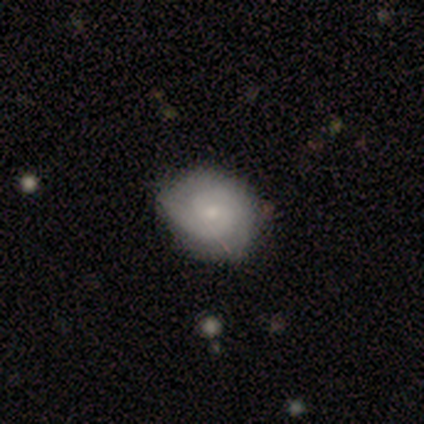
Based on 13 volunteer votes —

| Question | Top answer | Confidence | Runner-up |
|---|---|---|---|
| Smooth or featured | featured or disk | 69% | smooth (23%) |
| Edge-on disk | no | 100% | — |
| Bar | no | 67% | weak (33%) |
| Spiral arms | yes | 100% | — |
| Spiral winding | medium | 56% | tight (44%) |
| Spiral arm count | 2 | 67% | 3 (22%) |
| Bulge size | small | 78% | moderate (22%) |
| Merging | none | 75% | minor disturbance (25%) |